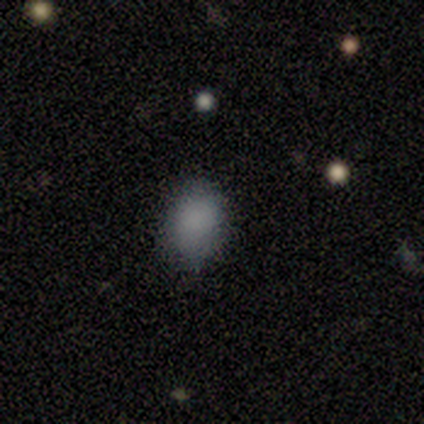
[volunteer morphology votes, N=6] Smooth or featured: smooth — 100%
How rounded: in between — 67% (round — 33%)
Merging: none — 50% (tied with minor disturbance — 50%)